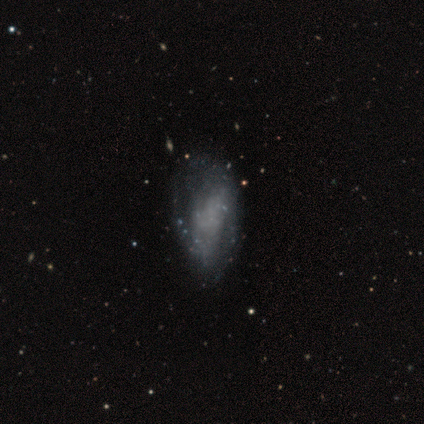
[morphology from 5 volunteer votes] Volunteers were most divided on "spiral arms" (2-way tie): yes: 50%, no: 50%; "spiral winding" (2-way tie): medium: 50%, loose: 50%, tight: 0%; "spiral arm count" (2-way tie): 3: 50%, can't tell: 50%, 1: 0%, 2: 0%, 4: 0%, more than 4: 0%. More confident: edge-on disk — no (100%); bar — no (100%); bulge size — none (100%); smooth or featured — featured or disk (80%); merging — minor disturbance (50%).